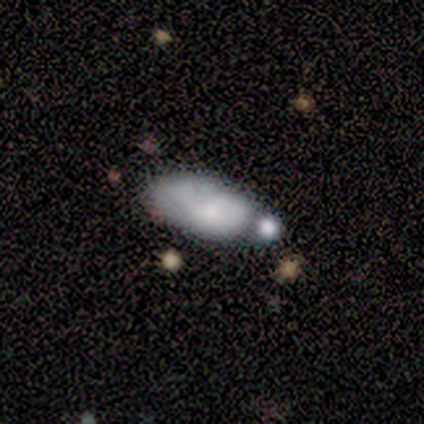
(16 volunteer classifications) This appears to be a smooth galaxy with no disk features (56%) that is in between round and cigar-shaped (89%). Merging: none (38%, tied with merger).